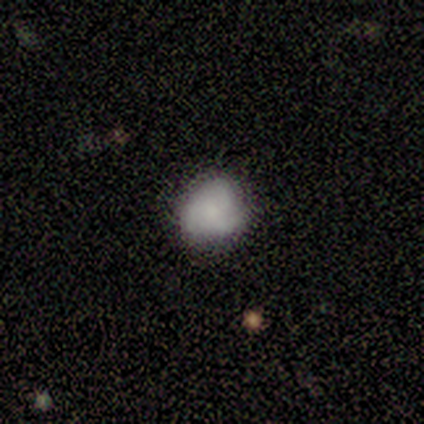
smooth_or_featured: smooth (p=0.58) [alt: featured or disk p=0.33]
how_rounded: round (p=0.86) [alt: in between p=0.14]
merging: none (p=0.73) [alt: minor disturbance p=0.27]